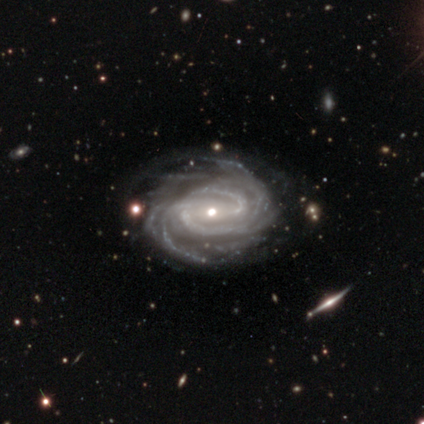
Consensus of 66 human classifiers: smooth-or-featured: featured or disk: 95% | star or artifact: 3% | smooth: 2%
  disk-edge-on: no: 98% | yes: 2%
    bar: weak: 39% | no: 34% | strong: 27%
    has-spiral-arms: yes: 97% | no: 3%
      spiral-winding: tight: 67% | medium: 28% | loose: 5%
      spiral-arm-count: more than 4: 50% | can't tell: 18% | 4: 17% | 3: 12% | 2: 3% | 1: 0%
    bulge-size: small: 52% | moderate: 45% | dominant: 2% | large: 2% | none: 0%
  merging: none: 73% | minor disturbance: 19% | major disturbance: 6% | merger: 2%